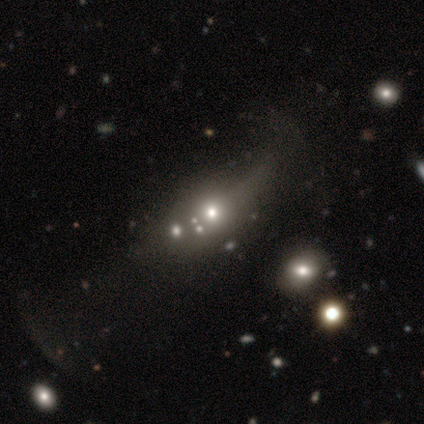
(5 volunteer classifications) This is marginally a smooth galaxy (40%, tied with star or artifact). How rounded: possibly round (50%, tied with in between). Merging: likely none (67%).